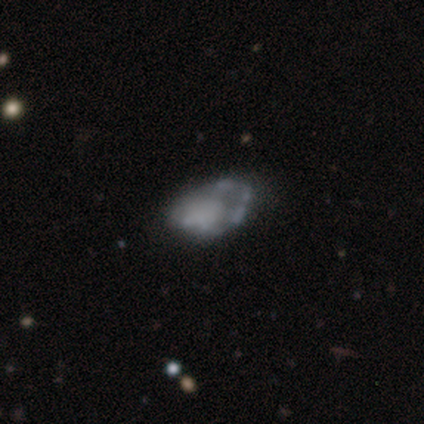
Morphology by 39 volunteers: Smooth or featured: featured or disk — 64% (smooth — 26%)
Edge-on disk: no — 100%
Bar: no — 84% (weak — 12%)
Spiral arms: no — 92% (yes — 8%)
Bulge size: none — 72% (small — 12%)
Merging: none — 46% (major disturbance — 29%)